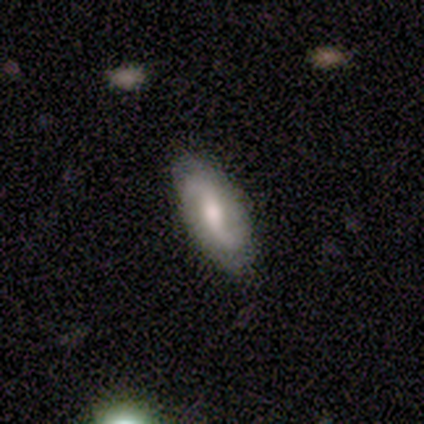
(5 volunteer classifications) Q: Smooth or featured?
A: featured or disk (80%); runner-up: smooth (20%)
Q: Edge-on disk?
A: no (100%)
Q: Bar?
A: weak (50%); runner-up: strong (25%)
Q: Spiral arms?
A: yes (75%); runner-up: no (25%)
Q: Spiral winding?
A: loose (100%)
Q: Spiral arm count?
A: 2 (100%)
Q: Bulge size?
A: moderate (50%); tied with: small (50%)
Q: Merging?
A: none (100%)